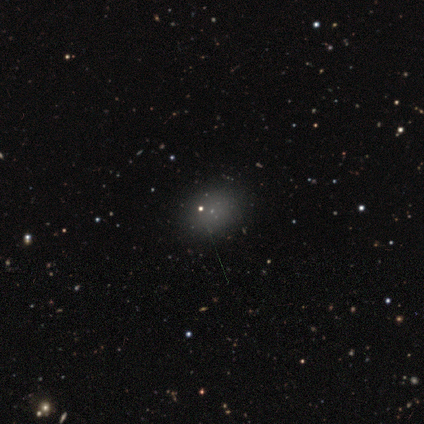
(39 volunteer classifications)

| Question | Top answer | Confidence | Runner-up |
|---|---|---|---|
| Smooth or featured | smooth | 72% | star or artifact (21%) |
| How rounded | in between | 54% | round (46%) |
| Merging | none | 90% | minor disturbance (6%) |